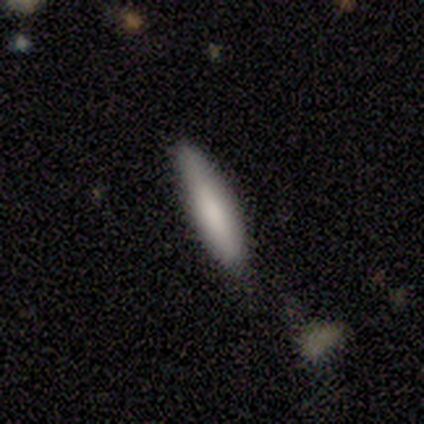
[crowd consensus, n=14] This is clearly a smooth galaxy (86%). How rounded: likely cigar-shaped (75%). Merging: likely none (62%).